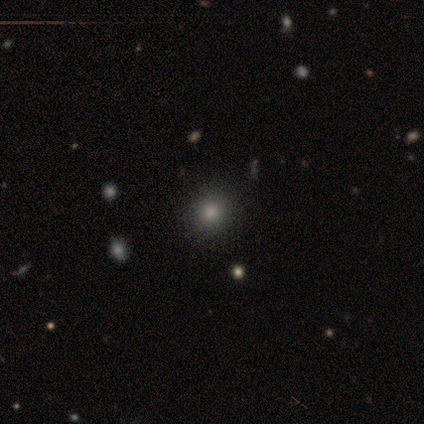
Volunteers were most divided on "merging": none: 61%, minor disturbance: 3%, major disturbance: 0%, merger: 0%. More confident: smooth or featured — smooth (92%); how rounded — round (89%).